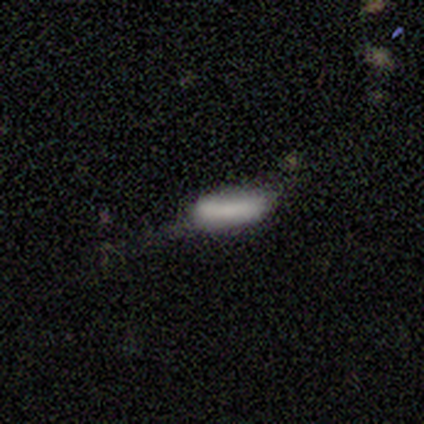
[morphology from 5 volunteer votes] type=smooth (60%); roundness=in between (100%); merging=minor disturbance (100%).